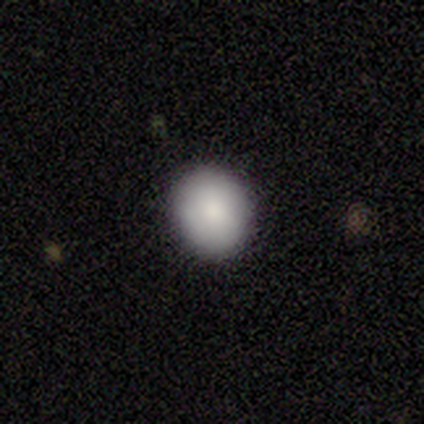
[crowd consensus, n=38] A smooth galaxy with no disk features (89%) that is round (82%).

Vote fractions:
- Smooth or featured? smooth: 89% / featured or disk: 5% / star or artifact: 5%
- How rounded? round: 82% / in between: 18% / cigar-shaped: 0%
- Merging? none: 94% / minor disturbance: 3% / merger: 3% / major disturbance: 0%